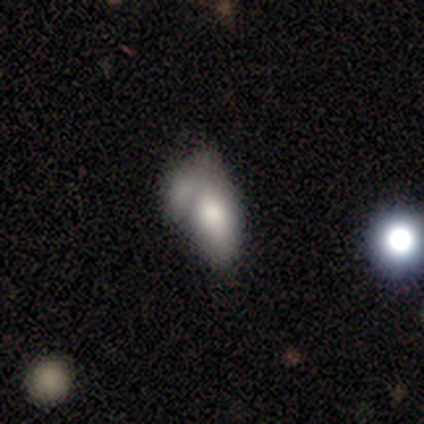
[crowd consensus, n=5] This is likely a smooth galaxy (60%). How rounded: likely in between (67%). Merging: likely merger (60%).